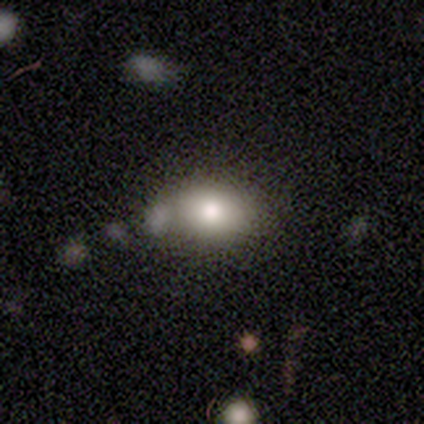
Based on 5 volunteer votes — Smooth or featured: smooth — 80% (featured or disk — 20%)
How rounded: in between — 100%
Merging: none — 60% (minor disturbance — 20%)